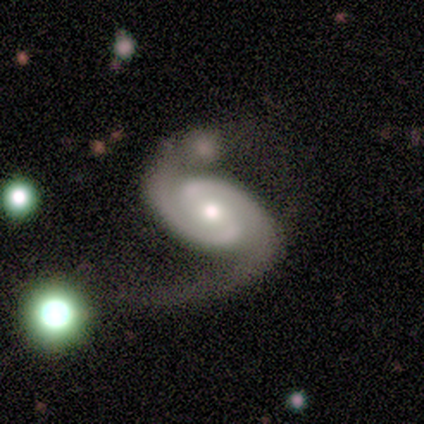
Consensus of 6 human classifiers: Q: Smooth or featured?
A: featured or disk (100%)
Q: Edge-on disk?
A: no (100%)
Q: Bar?
A: weak (83%); runner-up: no (17%)
Q: Spiral arms?
A: yes (100%)
Q: Spiral winding?
A: tight (33%); tied with: medium (33%); loose (33%)
Q: Spiral arm count?
A: 2 (100%)
Q: Bulge size?
A: moderate (67%); runner-up: small (33%)
Q: Merging?
A: none (50%); runner-up: minor disturbance (33%)